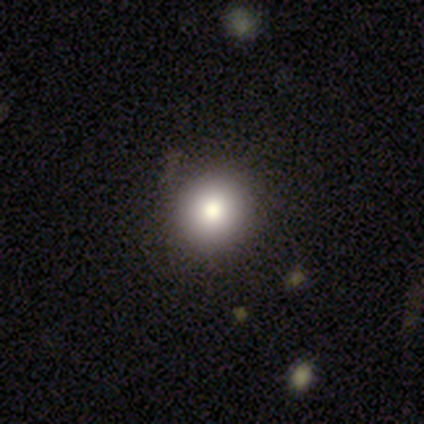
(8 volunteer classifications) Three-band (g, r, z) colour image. It shows a smooth galaxy with no disk features (88%) that is round (100%). Merging: none (100%).